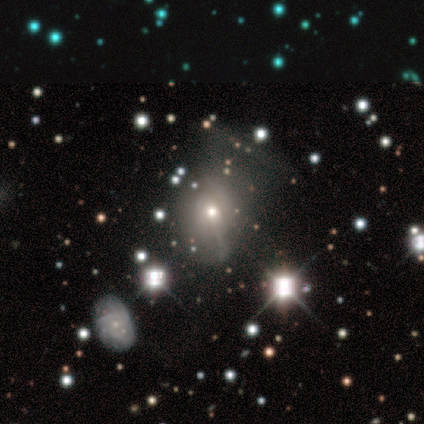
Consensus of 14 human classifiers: This appears to be a smooth galaxy with no disk features (50%) that is in between round and cigar-shaped (71%). Merging: none (60%).